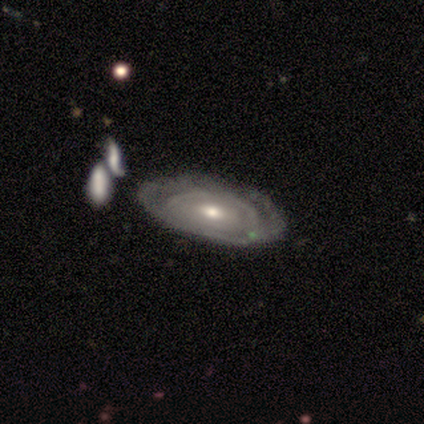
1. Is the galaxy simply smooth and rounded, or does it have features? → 88% featured or disk, 12% smooth, 0% star or artifact.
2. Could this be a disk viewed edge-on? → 100% no, 0% yes.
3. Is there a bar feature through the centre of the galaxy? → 77% no, 20% weak, 3% strong.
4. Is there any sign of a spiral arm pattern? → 54% no, 46% yes.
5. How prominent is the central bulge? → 60% moderate, 31% small, 6% large, 3% dominant, 0% none.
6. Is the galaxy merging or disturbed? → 55% none, 10% minor disturbance, 5% merger, 2% major disturbance.